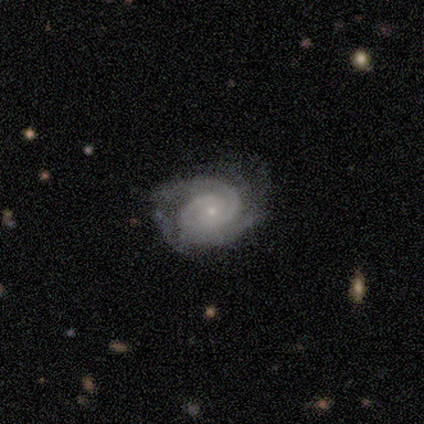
A featured or disk galaxy (75%) with no bar (67%), 2 (100%) tight (67%) spiral arms (100%) and a small central bulge (100%).

Vote fractions:
- Smooth or featured? featured or disk: 75% / star or artifact: 25% / smooth: 0%
- Edge-on disk? no: 100% / yes: 0%
- Bar? no: 67% / strong: 33% / weak: 0%
- Spiral arms? yes: 100% / no: 0%
- Spiral winding? tight: 67% / medium: 33% / loose: 0%
- Spiral arm count? 2: 100% / 1: 0% / 3: 0% / 4: 0% / more than 4: 0% / can't tell: 0%
- Bulge size? small: 100% / dominant: 0% / large: 0% / moderate: 0% / none: 0%
- Merging? none: 100% / minor disturbance: 0% / major disturbance: 0% / merger: 0%